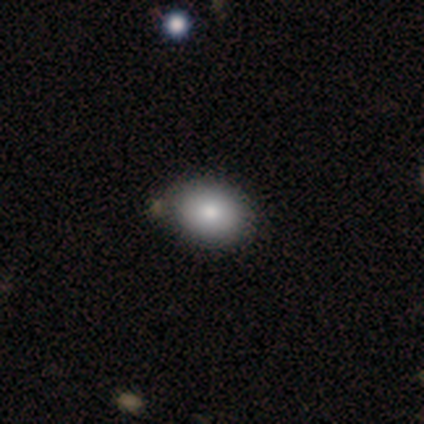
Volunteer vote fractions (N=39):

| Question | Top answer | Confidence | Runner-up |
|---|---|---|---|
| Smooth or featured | smooth | 79% | featured or disk (10%) |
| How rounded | in between | 84% | round (16%) |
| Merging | none | 77% | minor disturbance (11%) |